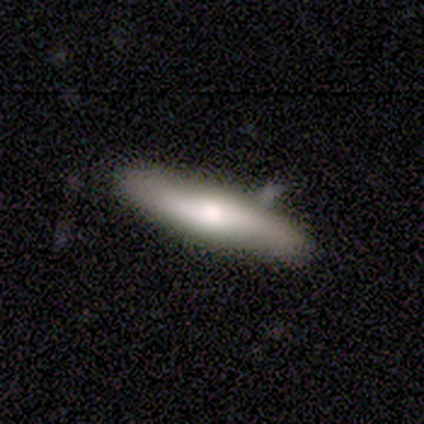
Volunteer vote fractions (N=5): A smooth galaxy with no disk features (80%) that is cigar-shaped (100%). Merging: none (80%).